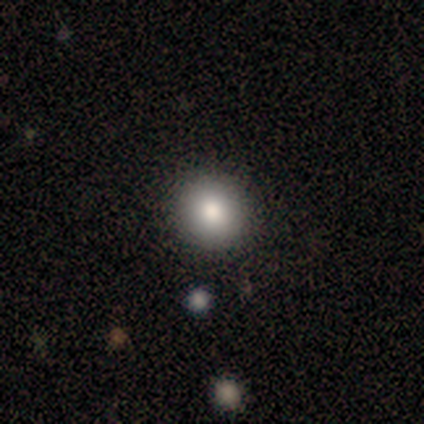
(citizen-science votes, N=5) Morphology: type=smooth (100%); roundness=round (100%); merging=none (100%).